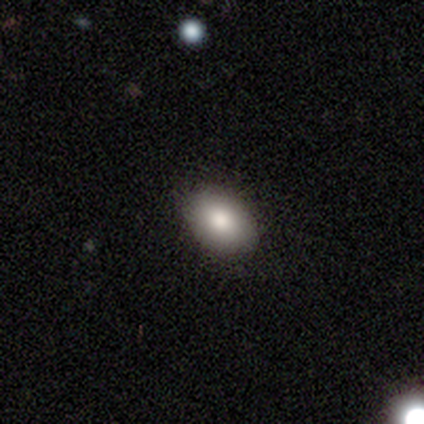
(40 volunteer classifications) This appears to be a smooth galaxy with no disk features (88%) that is in between round and cigar-shaped (94%). Merging: none (84%).